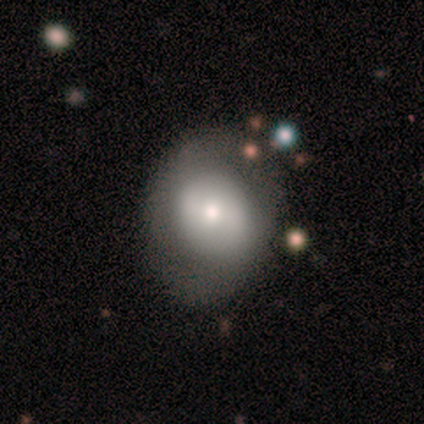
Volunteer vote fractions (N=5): This appears to be a featured or disk galaxy (60%) with no bar (100%), 2 (50%, tied with can't tell) loose (100%) spiral arms (67%) and a moderate central bulge (67%). Merging: none (60%).